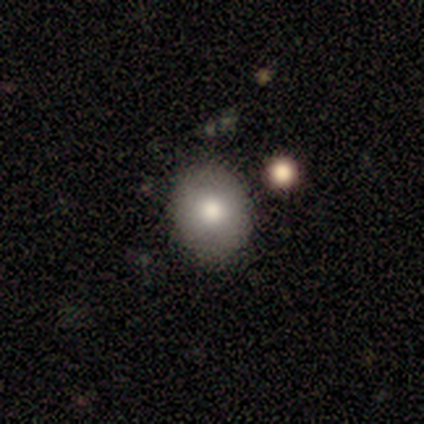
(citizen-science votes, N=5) smooth_or_featured: smooth (p=0.60) [alt: star or artifact p=0.40]
how_rounded: round (p=0.67) [alt: in between p=0.33]
merging: none (p=1.00)